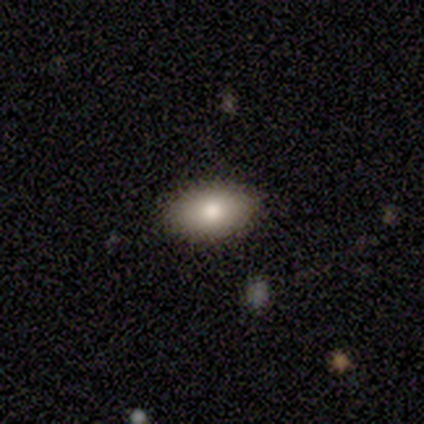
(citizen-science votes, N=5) Smooth or featured: smooth — 100%
How rounded: in between — 100%
Merging: none — 80% (minor disturbance — 20%)